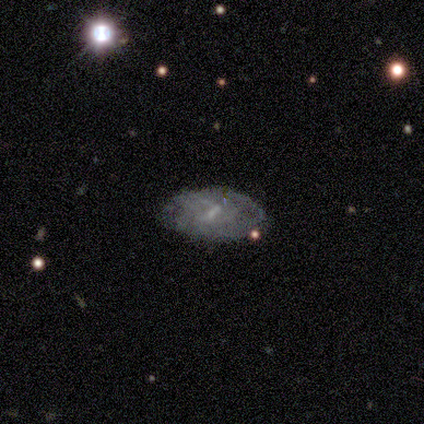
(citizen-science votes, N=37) Morphology: type=featured or disk (62%); edge-on=no (87%); bar=weak (50%); spiral arms=no (65%); bulge=none (50%); merging=none (70%).